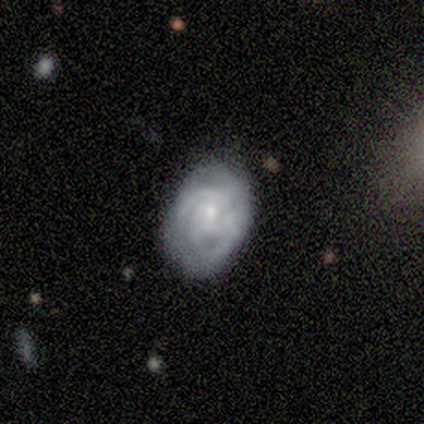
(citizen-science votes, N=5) Q: Smooth or featured?
A: featured or disk (60%); runner-up: smooth (40%)
Q: Edge-on disk?
A: no (100%)
Q: Bar?
A: no (67%); runner-up: weak (33%)
Q: Spiral arms?
A: yes (100%)
Q: Spiral winding?
A: medium (67%); runner-up: tight (33%)
Q: Spiral arm count?
A: can't tell (100%)
Q: Bulge size?
A: small (100%)
Q: Merging?
A: none (80%); runner-up: minor disturbance (20%)